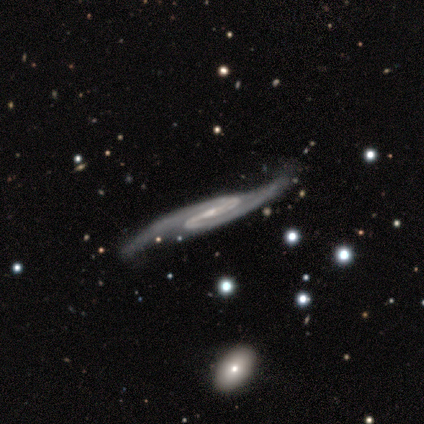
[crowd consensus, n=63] Smooth or featured?
  - featured or disk: 92% *
  - star or artifact: 5%
  - smooth: 3%
Edge-on disk?
  - no: 78% *
  - yes: 22%
Bar?
  - weak: 42% *
  - strong: 40%
  - no: 18%
Spiral arms?
  - yes: 100% *
  - no: 0%
Spiral winding?
  - medium: 64% *
  - loose: 20%
  - tight: 16%
Spiral arm count?
  - 2: 91% *
  - can't tell: 4%
  - 1: 2%
  - 3: 2%
  - 4: 0%
  - more than 4: 0%
Bulge size?
  - small: 69% *
  - moderate: 18%
  - none: 13%
  - dominant: 0%
  - large: 0%
Merging?
  - none: 38% *
  - minor disturbance: 28%
  - major disturbance: 7%
  - merger: 2%